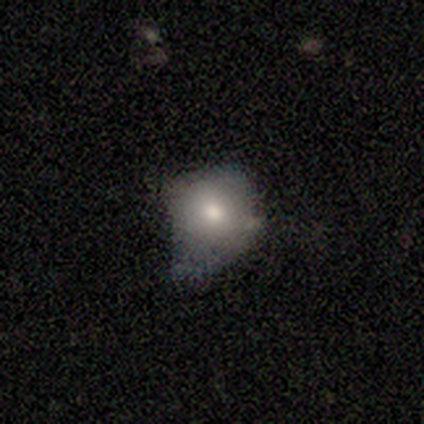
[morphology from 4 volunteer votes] A smooth galaxy with no disk features (75%) that is round (67%).

Vote fractions:
- Smooth or featured? smooth: 75% / star or artifact: 25% / featured or disk: 0%
- How rounded? round: 67% / in between: 33% / cigar-shaped: 0%
- Merging? none: 67% / major disturbance: 33% / minor disturbance: 0% / merger: 0%